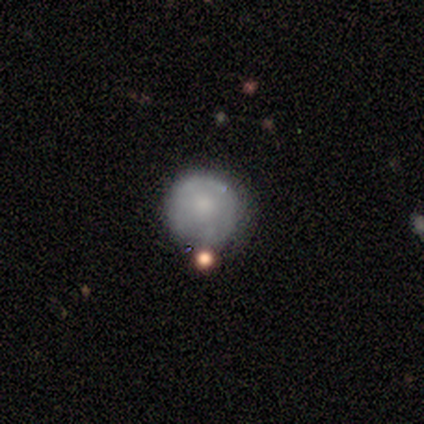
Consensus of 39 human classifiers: This appears to be a smooth galaxy with no disk features (62%) that is round (100%). Merging: none (59%).